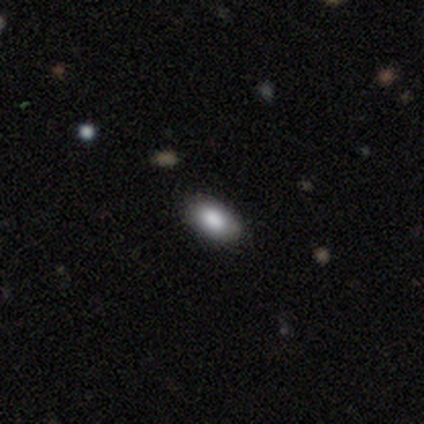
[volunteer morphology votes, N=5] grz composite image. It shows a smooth galaxy with no disk features (100%) that is in between round and cigar-shaped (100%). Merging: none (100%).